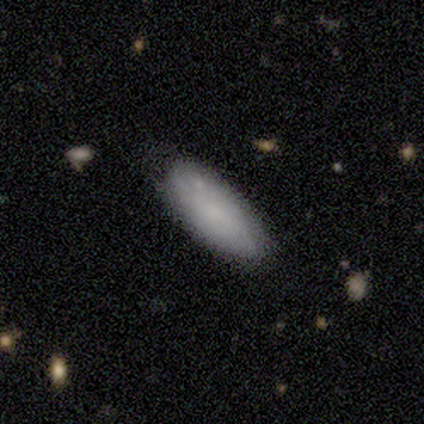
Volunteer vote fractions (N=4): Volunteers were most divided on "smooth or featured" (2-way tie): smooth: 50%, featured or disk: 50%, star or artifact: 0%. More confident: how rounded — in between (100%); merging — none (75%).